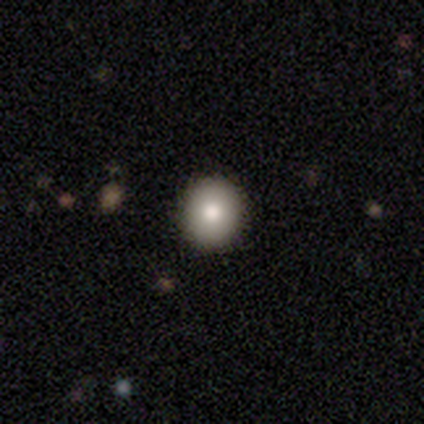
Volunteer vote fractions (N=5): Consensus on every question: smooth or featured — smooth (100%); how rounded — round (100%); merging — none (100%).